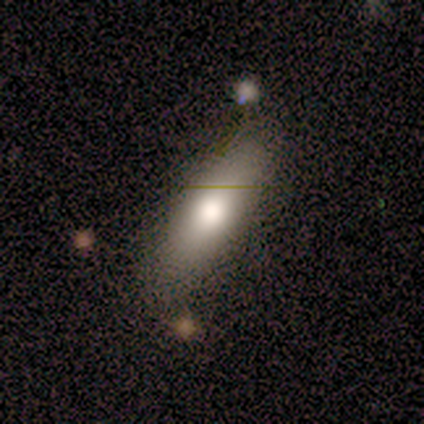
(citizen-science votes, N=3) Overall: smooth (100%). How rounded: in between (67%; cigar-shaped 33%). Merging: none (100%).